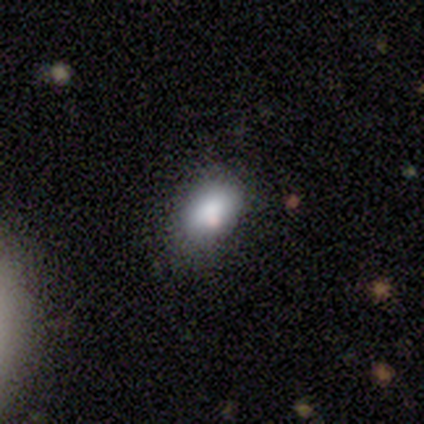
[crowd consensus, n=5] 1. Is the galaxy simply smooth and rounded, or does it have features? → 100% smooth, 0% featured or disk, 0% star or artifact.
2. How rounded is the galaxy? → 100% in between, 0% round, 0% cigar-shaped.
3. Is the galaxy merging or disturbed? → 100% none, 0% minor disturbance, 0% major disturbance, 0% merger.